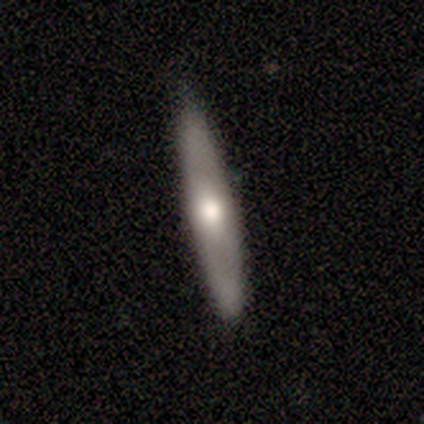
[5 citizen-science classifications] smooth-or-featured: featured or disk: 80% | smooth: 20% | star or artifact: 0%
  disk-edge-on: yes: 50% (tied) | no: 50% (tied)
    edge-on-bulge: rounded: 100% | boxy: 0% | none: 0%
  merging: none: 100% | minor disturbance: 0% | major disturbance: 0% | merger: 0%